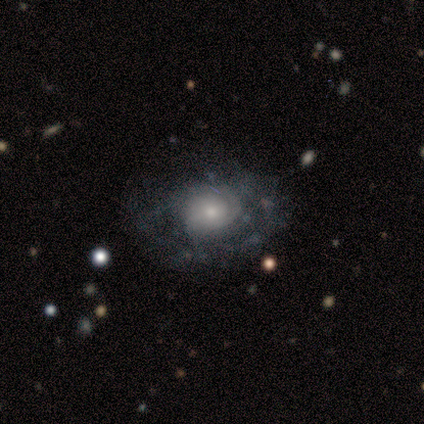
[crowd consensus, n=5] Q: Smooth or featured?
A: featured or disk (80%); runner-up: smooth (20%)
Q: Edge-on disk?
A: no (100%)
Q: Bar?
A: no (100%)
Q: Spiral arms?
A: yes (100%)
Q: Spiral winding?
A: tight (100%)
Q: Spiral arm count?
A: can't tell (75%); runner-up: 1 (25%)
Q: Bulge size?
A: small (75%); runner-up: moderate (25%)
Q: Merging?
A: none (80%); runner-up: minor disturbance (20%)